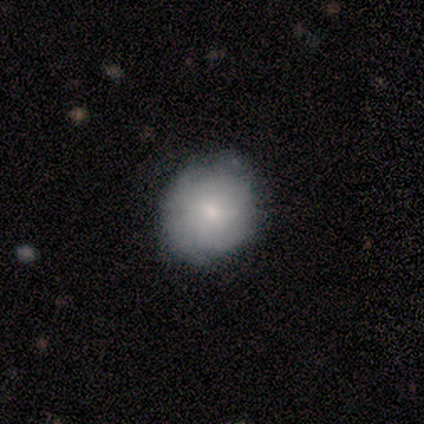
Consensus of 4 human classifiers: Volunteers were most divided on "how rounded": in between: 67%, round: 33%, cigar-shaped: 0%. More confident: merging — none (100%); smooth or featured — smooth (75%).